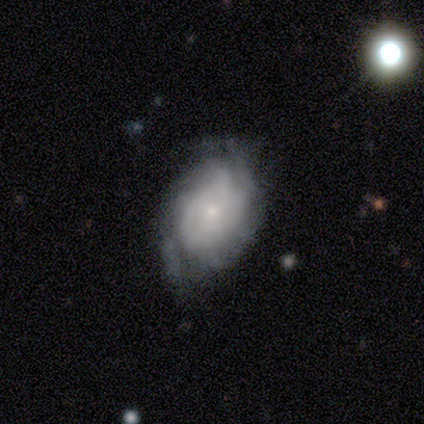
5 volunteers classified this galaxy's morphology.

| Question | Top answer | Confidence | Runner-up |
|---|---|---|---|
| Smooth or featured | featured or disk | 80% | smooth (20%) |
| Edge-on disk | no | 100% | — |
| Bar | no | 100% | — |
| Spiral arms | yes | 50% | tied: no (50%) |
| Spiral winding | tight | 50% | tied: loose (50%) |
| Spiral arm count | can't tell | 100% | — |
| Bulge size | small | 100% | — |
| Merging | none | 60% | minor disturbance (20%) |